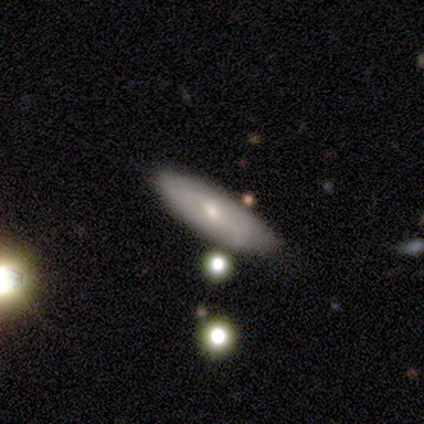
A smooth galaxy with no disk features (57%) that is cigar-shaped (100%).

Vote fractions:
- Smooth or featured? smooth: 57% / featured or disk: 43% / star or artifact: 0%
- How rounded? cigar-shaped: 100% / round: 0% / in between: 0%
- Merging? none: 86% / minor disturbance: 14% / major disturbance: 0% / merger: 0%